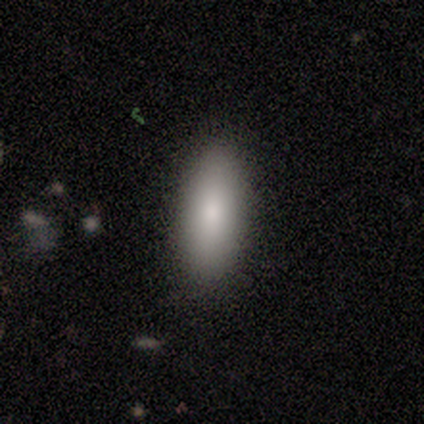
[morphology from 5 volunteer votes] Consensus on every question: smooth or featured — smooth (100%); how rounded — in between (100%); merging — none (100%).